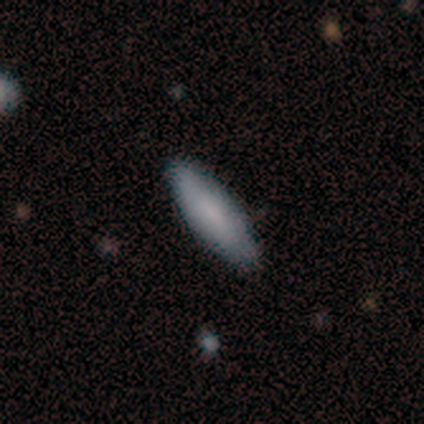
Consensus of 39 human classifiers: Volunteers were most divided on "how rounded": in between: 54%, cigar-shaped: 46%, round: 0%. More confident: merging — none (86%); smooth or featured — smooth (72%).